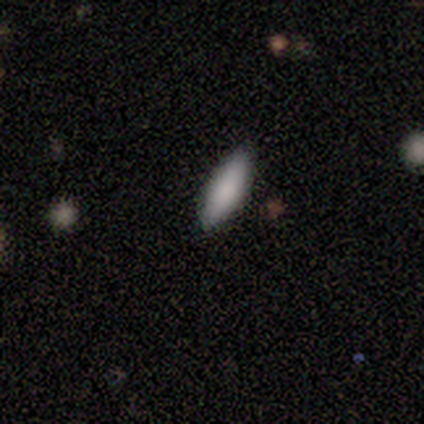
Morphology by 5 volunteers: A smooth galaxy with no disk features (80%) that is in between round and cigar-shaped (50%, tied with cigar-shaped).

Vote fractions:
- Smooth or featured? smooth: 80% / star or artifact: 20% / featured or disk: 0%
- How rounded? in between: 50% (tied) / cigar-shaped: 50% (tied) / round: 0%
- Merging? none: 100% / minor disturbance: 0% / major disturbance: 0% / merger: 0%